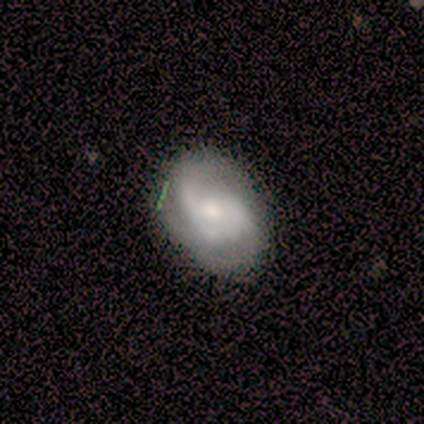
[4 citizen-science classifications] Volunteers were most divided on "spiral winding": tight: 67%, medium: 33%, loose: 0%. More confident: edge-on disk — no (100%); bar — weak (100%); spiral arms — yes (100%); smooth or featured — featured or disk (75%); spiral arm count — 3 (67%); bulge size — moderate (67%); merging — none (67%).